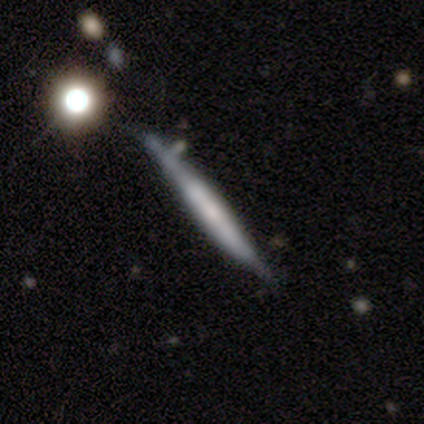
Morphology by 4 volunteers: Smooth or featured? 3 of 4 (75%) said smooth. How rounded? 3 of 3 (100%) said cigar-shaped. Merging? 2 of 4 (50%, tied with merger) said none.